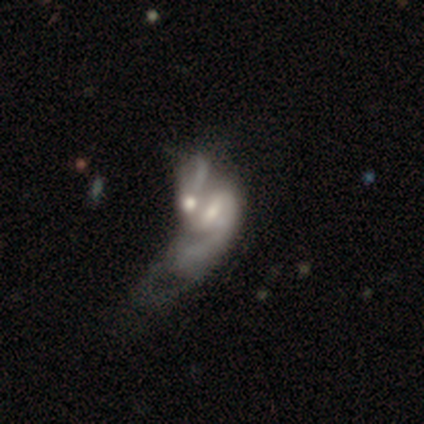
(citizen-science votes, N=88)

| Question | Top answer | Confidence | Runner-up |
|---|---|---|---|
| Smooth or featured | featured or disk | 75% | smooth (19%) |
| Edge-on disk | no | 98% | yes (2%) |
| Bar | no | 54% | weak (35%) |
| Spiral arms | yes | 65% | no (35%) |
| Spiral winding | loose | 57% | medium (33%) |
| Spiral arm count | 2 | 45% | can't tell (26%) |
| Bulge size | moderate | 63% | small (29%) |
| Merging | merger | 87% | major disturbance (11%) |